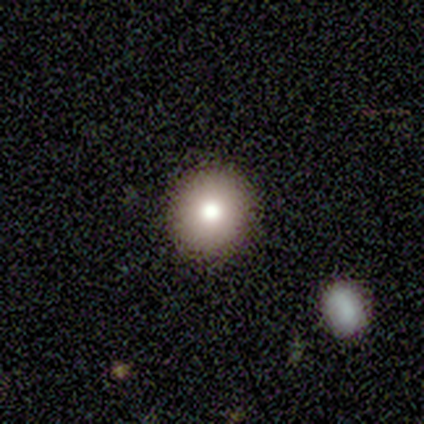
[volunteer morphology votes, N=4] Smooth or featured? 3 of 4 (75%) said smooth. How rounded? 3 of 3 (100%) said round. Merging? 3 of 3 (100%) said none.